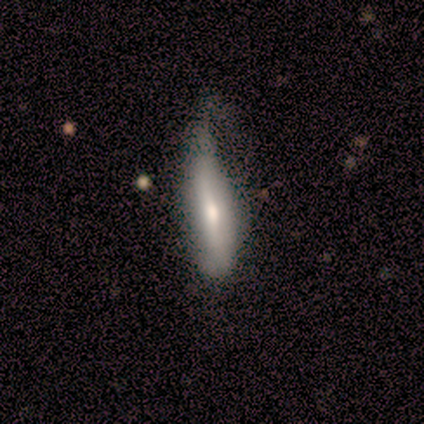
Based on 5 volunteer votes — smooth-or-featured: smooth: 40% (tied) | featured or disk: 40% (tied) | star or artifact: 20%
  how-rounded: in between: 50% (tied) | cigar-shaped: 50% (tied) | round: 0%
  merging: minor disturbance: 75% | none: 25% | major disturbance: 0% | merger: 0%